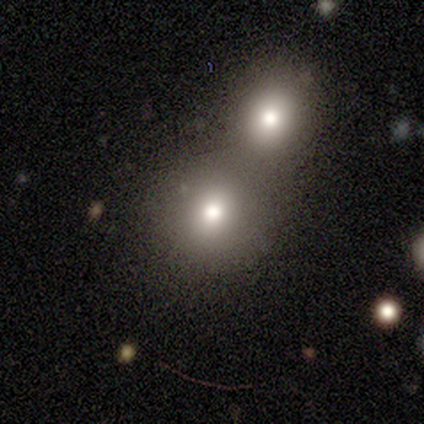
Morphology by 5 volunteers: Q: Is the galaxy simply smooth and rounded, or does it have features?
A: smooth — 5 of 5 (100%).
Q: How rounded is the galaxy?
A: round — 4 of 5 (80%).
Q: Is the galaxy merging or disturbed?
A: none — 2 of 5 (40%, tied with merger).